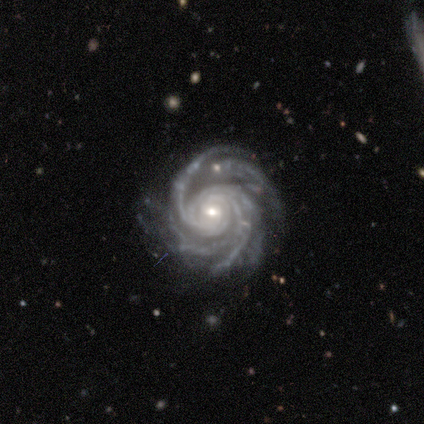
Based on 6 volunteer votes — Smooth or featured?
  - featured or disk: 83% *
  - star or artifact: 17%
  - smooth: 0%
Edge-on disk?
  - no: 100% *
  - yes: 0%
Bar?
  - no: 80% *
  - weak: 20%
  - strong: 0%
Spiral arms?
  - yes: 100% *
  - no: 0%
Spiral winding?
  - tight: 80% *
  - medium: 20%
  - loose: 0%
Spiral arm count?
  - 3: 40% * (tied)
  - more than 4: 40% * (tied)
  - 4: 20%
  - 1: 0%
  - 2: 0%
  - can't tell: 0%
Bulge size?
  - moderate: 60% *
  - small: 40%
  - dominant: 0%
  - large: 0%
  - none: 0%
Merging?
  - none: 100% *
  - minor disturbance: 0%
  - major disturbance: 0%
  - merger: 0%